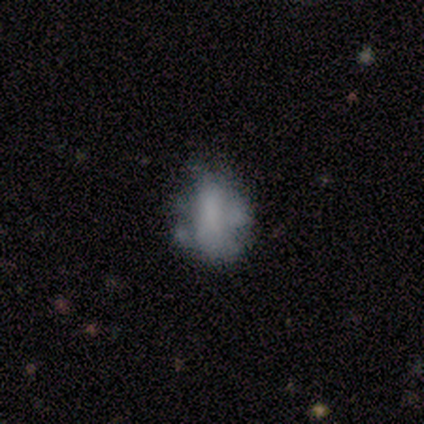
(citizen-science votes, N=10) Volunteers were most divided on "smooth or featured": smooth: 50%, featured or disk: 40%, star or artifact: 10%. Remaining: how rounded — in between (100%); merging — minor disturbance (44%).